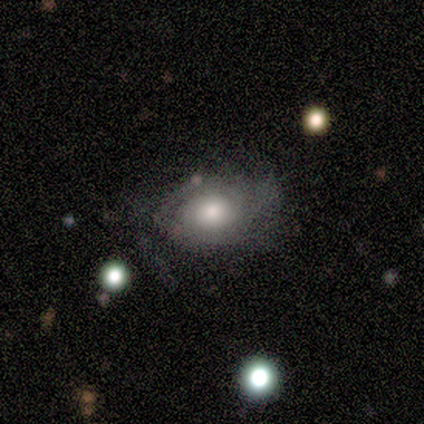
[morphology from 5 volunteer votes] Overall: featured or disk (80%). Edge-on disk: no (100%). Bar: no (100%). Spiral arms: yes (100%). Spiral arm count: 1 (25%, tied with 2, 3 and can't tell). Spiral winding: tight (75%). Bulge size: moderate (75%). Merging: none (40%; minor disturbance 20%).